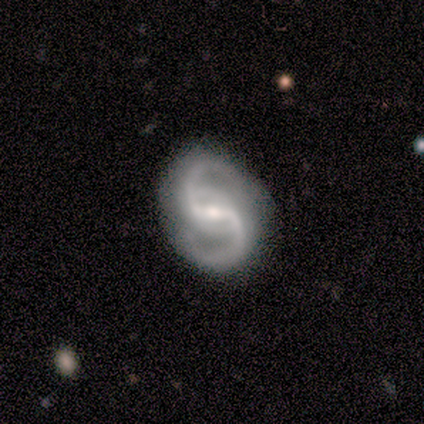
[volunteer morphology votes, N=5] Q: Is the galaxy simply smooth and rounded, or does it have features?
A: featured or disk — 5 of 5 (100%).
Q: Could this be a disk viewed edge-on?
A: no — 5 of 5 (100%).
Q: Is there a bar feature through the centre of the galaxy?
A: weak — 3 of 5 (60%).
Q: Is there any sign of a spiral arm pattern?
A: yes — 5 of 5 (100%).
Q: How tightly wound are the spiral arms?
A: medium — 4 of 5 (80%).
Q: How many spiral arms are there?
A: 2 — 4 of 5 (80%).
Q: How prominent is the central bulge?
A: moderate — 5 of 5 (100%).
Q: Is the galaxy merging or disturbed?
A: none — 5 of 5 (100%).